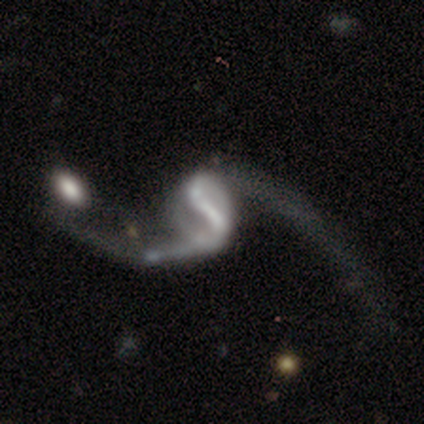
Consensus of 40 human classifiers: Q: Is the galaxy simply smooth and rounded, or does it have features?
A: featured or disk — 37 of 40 (92%).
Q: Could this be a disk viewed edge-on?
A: no — 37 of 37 (100%).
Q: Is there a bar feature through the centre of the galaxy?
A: strong — 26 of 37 (70%).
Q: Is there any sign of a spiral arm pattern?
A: yes — 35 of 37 (95%).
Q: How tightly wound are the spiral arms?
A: loose — 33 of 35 (94%).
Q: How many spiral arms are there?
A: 2 — 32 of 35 (91%).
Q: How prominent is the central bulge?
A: none — 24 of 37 (65%).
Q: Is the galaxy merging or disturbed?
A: merger — 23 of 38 (61%).